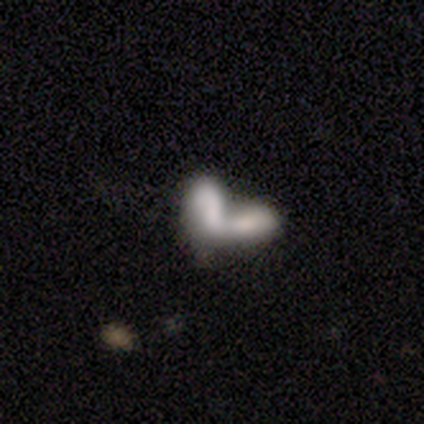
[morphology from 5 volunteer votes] Smooth or featured: smooth — 80% (featured or disk — 20%)
How rounded: in between — 100%
Merging: merger — 80% (major disturbance — 20%)